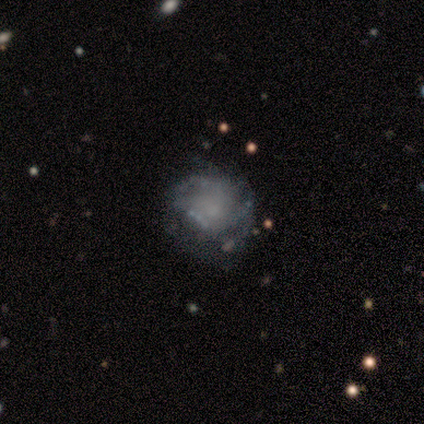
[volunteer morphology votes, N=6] Smooth or featured? 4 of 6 (67%) said featured or disk. Edge-on disk? 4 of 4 (100%) said no. Bar? 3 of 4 (75%) said no. Spiral arms? 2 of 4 (50%, tied with no) said yes. Spiral winding? 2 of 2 (100%) said tight. Spiral arm count? 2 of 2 (100%) said can't tell. Bulge size? 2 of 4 (50%) said none. Merging? 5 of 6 (83%) said none.